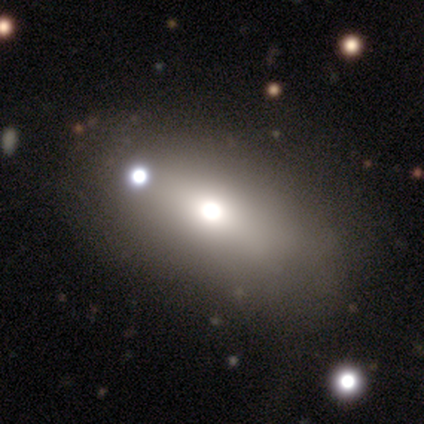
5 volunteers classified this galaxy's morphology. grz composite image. It shows a smooth galaxy with no disk features (100%) that is in between round and cigar-shaped (80%). Merging: none (100%).